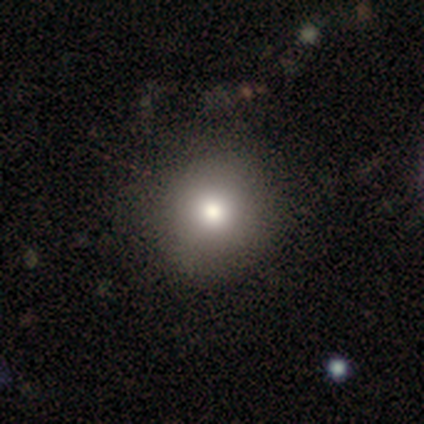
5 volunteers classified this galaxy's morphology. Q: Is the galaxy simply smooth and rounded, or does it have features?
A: smooth — 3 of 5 (60%).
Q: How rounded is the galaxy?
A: round — 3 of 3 (100%).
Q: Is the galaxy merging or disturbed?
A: none — 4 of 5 (80%).